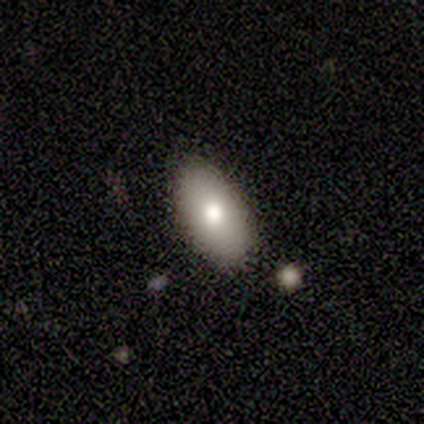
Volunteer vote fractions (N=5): smooth_or_featured: smooth (p=0.80) [alt: featured or disk p=0.20]
how_rounded: in between (p=1.00)
merging: none (p=1.00)